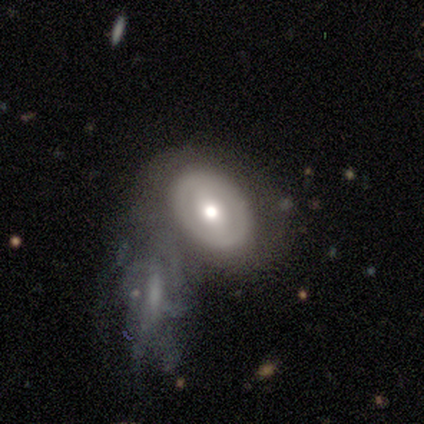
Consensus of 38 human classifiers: Q: Smooth or featured?
A: featured or disk (53%); runner-up: smooth (45%)
Q: Edge-on disk?
A: no (90%); runner-up: yes (10%)
Q: Bar?
A: weak (44%); runner-up: no (33%)
Q: Spiral arms?
A: no (67%); runner-up: yes (33%)
Q: Bulge size?
A: moderate (89%); runner-up: large (11%)
Q: Merging?
A: none (35%); runner-up: merger (27%)